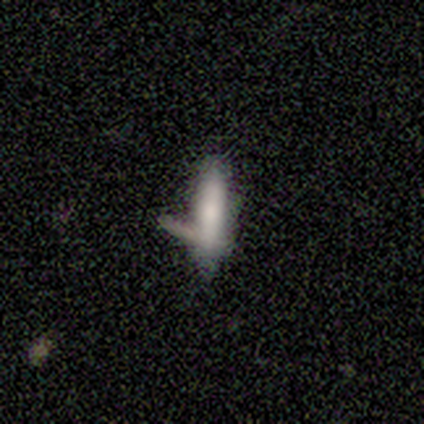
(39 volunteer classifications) Smooth or featured? 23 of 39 (59%) said smooth. How rounded? 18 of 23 (78%) said cigar-shaped. Merging? 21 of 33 (64%) said none.